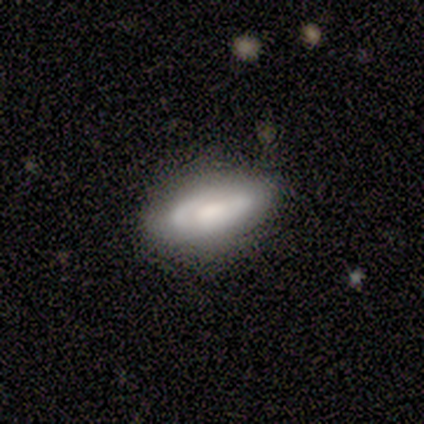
Volunteers were most divided on "spiral winding" (2-way tie): tight: 50%, medium: 50%, loose: 0%; "spiral arm count" (2-way tie): 2: 50%, can't tell: 50%, 1: 0%, 3: 0%, 4: 0%, more than 4: 0%; "bulge size" (2-way tie): moderate: 50%, small: 50%, dominant: 0%, large: 0%, none: 0%. More confident: bar — no (100%); spiral arms — yes (100%); merging — none (80%); edge-on disk — no (67%); smooth or featured — featured or disk (60%).